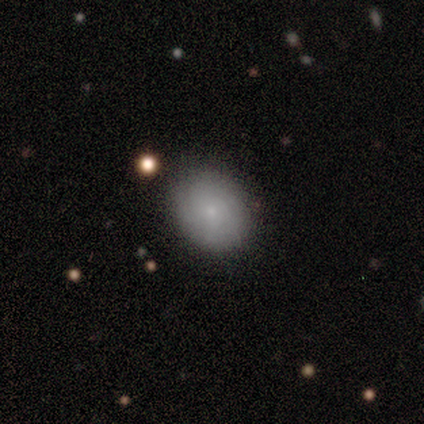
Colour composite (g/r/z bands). It shows a smooth galaxy with no disk features (60%) that is round (67%). Merging: none (100%).